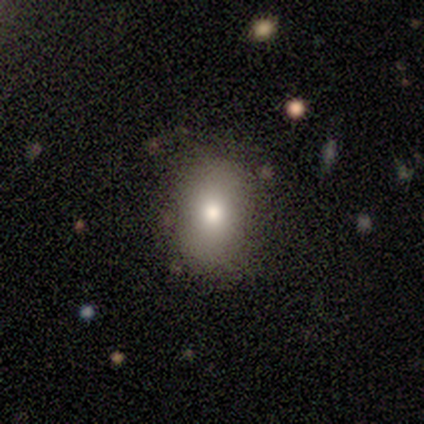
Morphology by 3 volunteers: A smooth galaxy with no disk features (33%, tied with featured or disk and star or artifact) that is in between round and cigar-shaped (100%). Merging: none (100%).